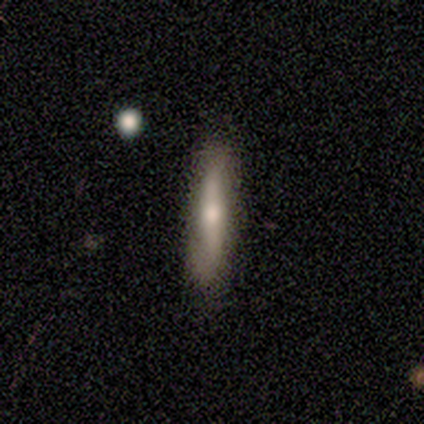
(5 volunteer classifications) Overall: smooth (60%; featured or disk 40%). How rounded: cigar-shaped (100%). Merging: none (80%).